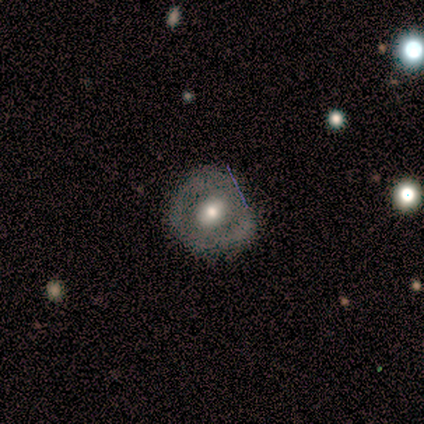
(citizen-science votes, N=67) Q: Smooth or featured?
A: featured or disk (64%); runner-up: smooth (25%)
Q: Edge-on disk?
A: no (98%); runner-up: yes (2%)
Q: Bar?
A: weak (52%); runner-up: no (38%)
Q: Spiral arms?
A: no (71%); runner-up: yes (29%)
Q: Bulge size?
A: moderate (71%); runner-up: large (12%)
Q: Merging?
A: none (55%); runner-up: minor disturbance (42%)